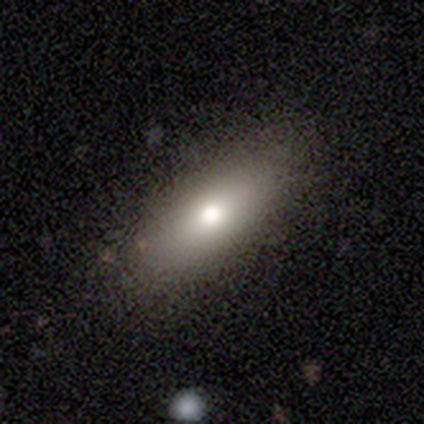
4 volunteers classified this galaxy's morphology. Smooth or featured? smooth (100%)
How rounded? in between (50%, tied with cigar-shaped)
Merging? none (50%, tied with minor disturbance)